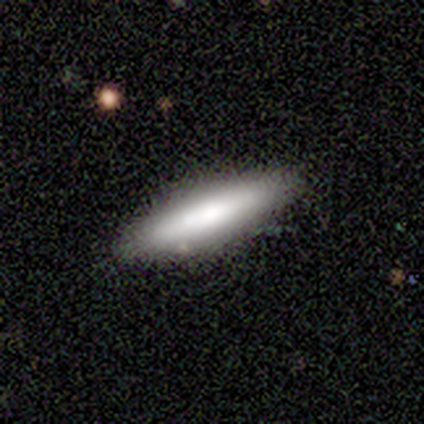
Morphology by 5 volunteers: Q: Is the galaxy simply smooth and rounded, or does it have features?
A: smooth — 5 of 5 (100%).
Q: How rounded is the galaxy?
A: cigar-shaped — 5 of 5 (100%).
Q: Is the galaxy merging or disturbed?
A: none — 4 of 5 (80%).